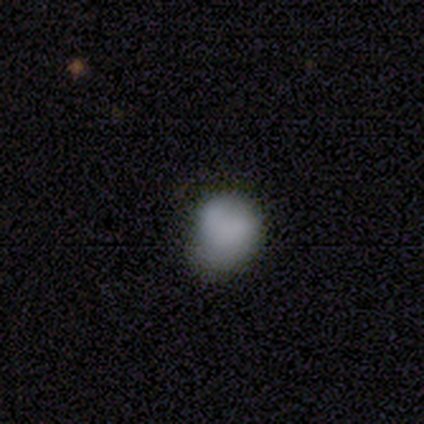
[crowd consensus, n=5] Smooth or featured? smooth (100%)
How rounded? round (60%)
Merging? minor disturbance (60%)